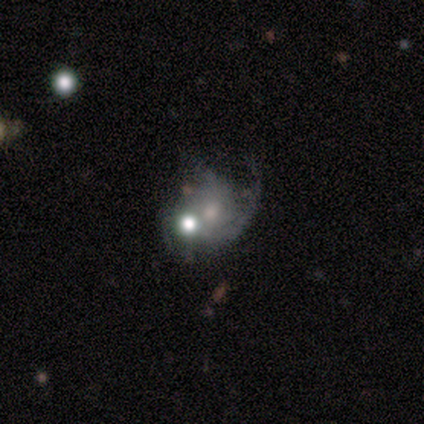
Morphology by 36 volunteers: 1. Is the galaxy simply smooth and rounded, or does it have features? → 72% featured or disk, 19% smooth, 8% star or artifact.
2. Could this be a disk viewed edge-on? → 100% no, 0% yes.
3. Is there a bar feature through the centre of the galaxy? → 77% no, 15% weak, 8% strong.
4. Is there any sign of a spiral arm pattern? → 88% yes, 12% no.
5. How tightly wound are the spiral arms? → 57% loose, 22% tight, 22% medium.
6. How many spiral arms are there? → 43% can't tell, 30% 2, 17% 1, 9% 3, 0% 4, 0% more than 4.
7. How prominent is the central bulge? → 46% moderate, 42% small, 8% none, 4% large, 0% dominant.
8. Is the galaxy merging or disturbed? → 36% major disturbance (tied), 36% merger (tied), 24% none, 3% minor disturbance.